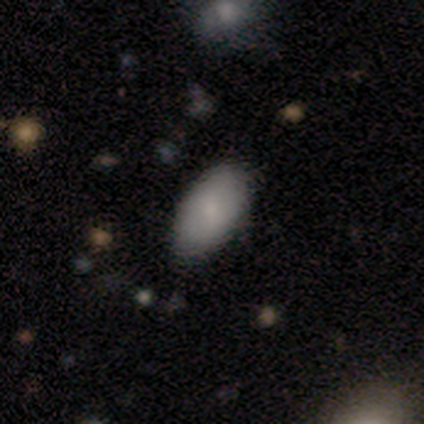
A smooth galaxy with no disk features (67%) that is in between round and cigar-shaped (100%).

Vote fractions:
- Smooth or featured? smooth: 67% / featured or disk: 33% / star or artifact: 0%
- How rounded? in between: 100% / round: 0% / cigar-shaped: 0%
- Merging? none: 67% / minor disturbance: 33% / major disturbance: 0% / merger: 0%